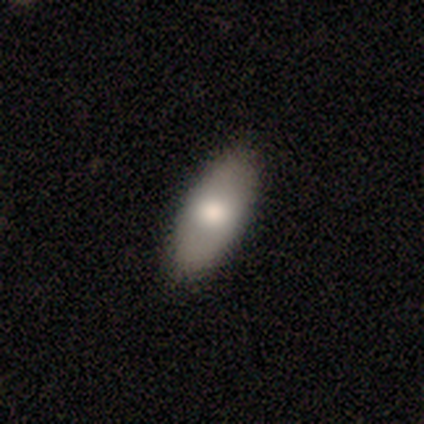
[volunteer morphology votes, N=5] Overall: smooth (40%, tied with featured or disk). How rounded: in between (100%). Merging: none (100%).